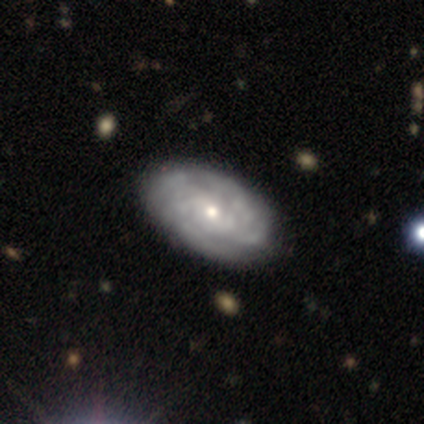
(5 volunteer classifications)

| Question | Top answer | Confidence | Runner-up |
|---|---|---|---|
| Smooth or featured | featured or disk | 80% | smooth (20%) |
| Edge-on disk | no | 100% | — |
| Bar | no | 100% | — |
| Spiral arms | yes | 75% | no (25%) |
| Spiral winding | tight | 67% | medium (33%) |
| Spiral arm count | can't tell | 67% | 4 (33%) |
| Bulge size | moderate | 50% | tied: small (50%) |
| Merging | none | 80% | minor disturbance (20%) |